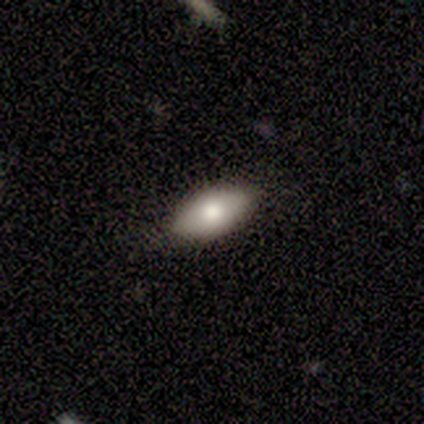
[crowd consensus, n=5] Smooth or featured? smooth (80%)
How rounded? in between (100%)
Merging? none (80%)